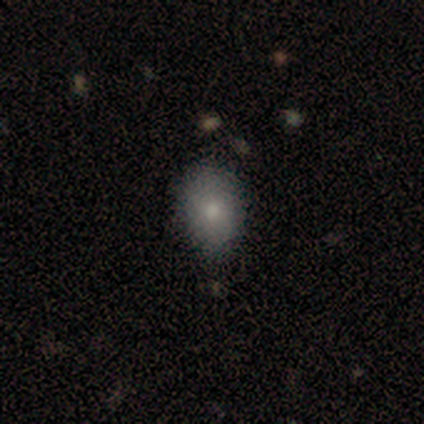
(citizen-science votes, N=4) smooth 75%, star or artifact 25%, featured or disk 0%. Down the decision tree: how rounded — in between (100%); merging — none (67%).